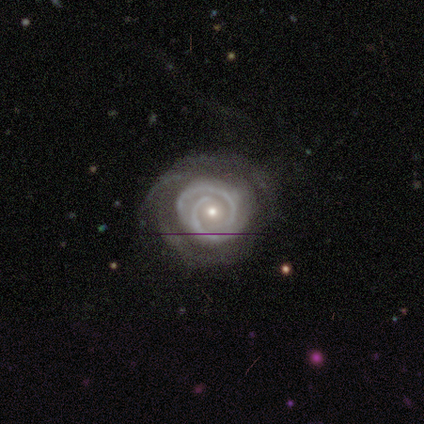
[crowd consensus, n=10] Smooth or featured? featured or disk (90%)
Edge-on disk? no (100%)
Bar? no (78%)
Spiral arms? yes (100%)
Spiral winding? tight (78%)
Spiral arm count? 2 (67%)
Bulge size? small (56%)
Merging? none (67%)